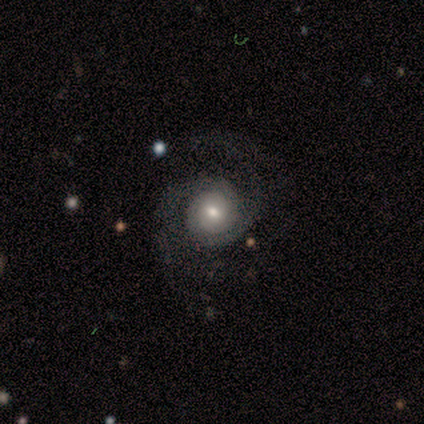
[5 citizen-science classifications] This is clearly a featured or disk galaxy (100%). It is clearly not viewed edge-on (100%). Bar: clearly no (80%). Spiral arm pattern: clearly yes (100%). Spiral arm count: clearly 2 (100%). Spiral winding: marginally tight (40%, tied with medium). Central bulge: likely moderate (60%). Merging: likely none (60%).